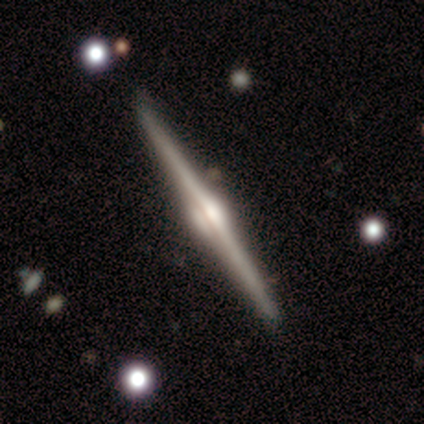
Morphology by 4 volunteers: Smooth or featured?
  - featured or disk: 100% *
  - smooth: 0%
  - star or artifact: 0%
Edge-on disk?
  - yes: 100% *
  - no: 0%
Edge-on bulge?
  - rounded: 100% *
  - boxy: 0%
  - none: 0%
Merging?
  - none: 100% *
  - minor disturbance: 0%
  - major disturbance: 0%
  - merger: 0%